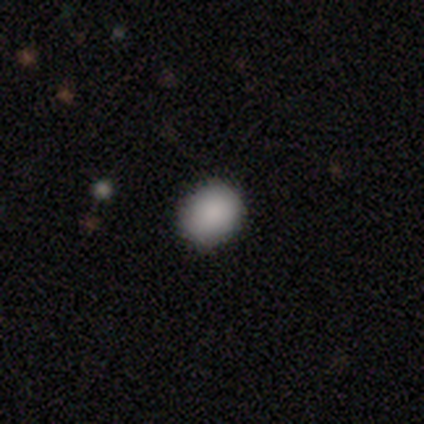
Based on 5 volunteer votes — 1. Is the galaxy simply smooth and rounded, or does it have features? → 100% smooth, 0% featured or disk, 0% star or artifact.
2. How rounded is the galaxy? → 60% round, 40% in between, 0% cigar-shaped.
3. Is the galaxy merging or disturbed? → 100% none, 0% minor disturbance, 0% major disturbance, 0% merger.